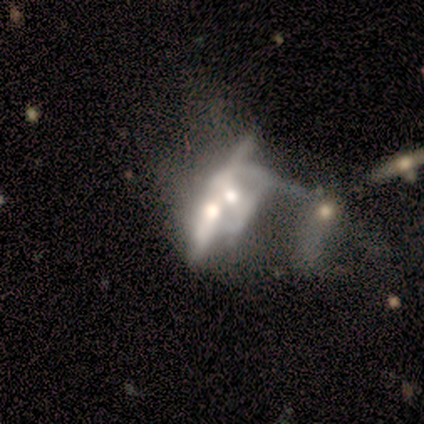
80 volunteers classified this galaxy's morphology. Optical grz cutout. It shows a featured or disk galaxy (81%) with no bar (80%), no spiral arms (91%) and a moderate central bulge (67%). Merging: merger (76%).